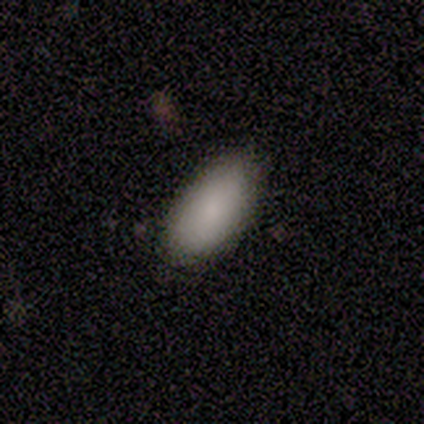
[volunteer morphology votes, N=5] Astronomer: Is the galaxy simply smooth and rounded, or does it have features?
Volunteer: smooth — 80%.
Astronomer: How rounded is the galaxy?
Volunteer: in between — 100%.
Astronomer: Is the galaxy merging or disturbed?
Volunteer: none — 75%.